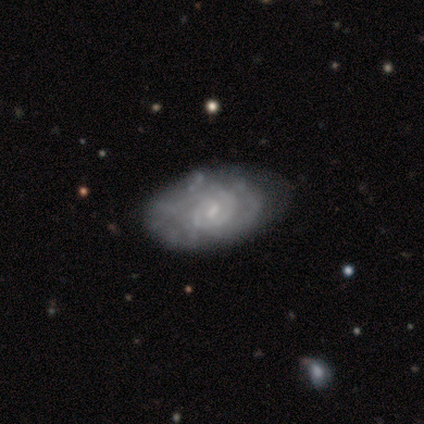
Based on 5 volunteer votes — Smooth or featured? 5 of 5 (100%) said featured or disk. Edge-on disk? 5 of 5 (100%) said no. Bar? 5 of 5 (100%) said weak. Spiral arms? 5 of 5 (100%) said yes. Spiral winding? 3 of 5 (60%) said tight. Spiral arm count? 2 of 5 (40%) said 3. Bulge size? 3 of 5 (60%) said small. Merging? 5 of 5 (100%) said none.